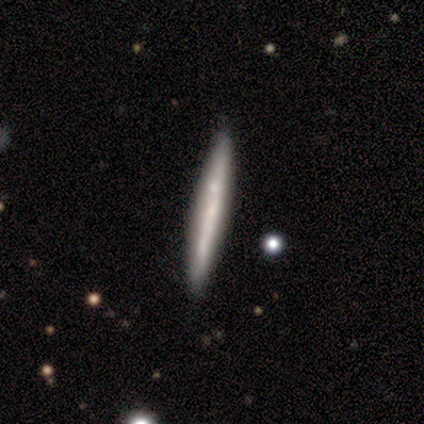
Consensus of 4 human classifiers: Smooth or featured? 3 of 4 (75%) said smooth. How rounded? 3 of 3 (100%) said cigar-shaped. Merging? 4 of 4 (100%) said none.